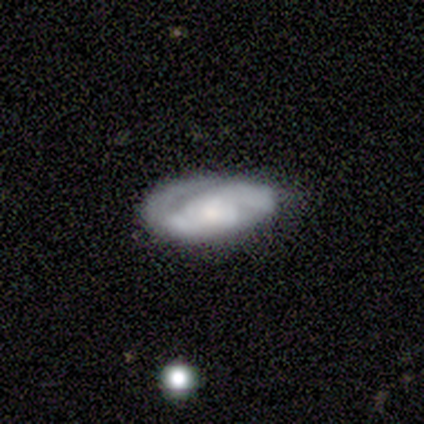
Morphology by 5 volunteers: Smooth or featured? 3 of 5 (60%) said featured or disk. Edge-on disk? 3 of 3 (100%) said no. Bar? 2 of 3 (67%) said no. Spiral arms? 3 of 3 (100%) said yes. Spiral winding? 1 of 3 (33%, tied with medium and loose) said tight. Spiral arm count? 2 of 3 (67%) said 2. Bulge size? 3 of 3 (100%) said small. Merging? 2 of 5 (40%, tied with minor disturbance) said none.